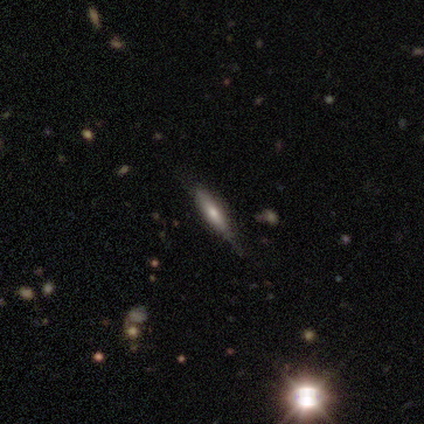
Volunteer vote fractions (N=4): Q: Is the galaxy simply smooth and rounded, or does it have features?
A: featured or disk — 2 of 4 (50%).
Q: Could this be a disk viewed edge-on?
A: yes — 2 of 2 (100%).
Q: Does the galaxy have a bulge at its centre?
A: rounded — 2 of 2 (100%).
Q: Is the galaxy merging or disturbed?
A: none — 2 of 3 (67%).